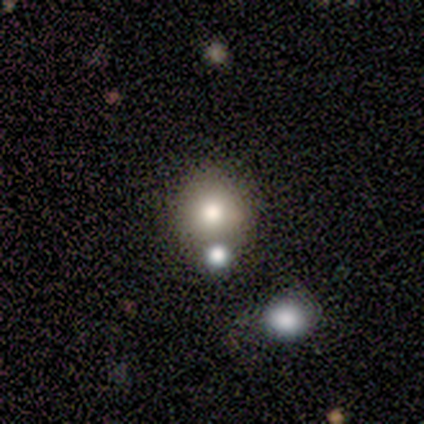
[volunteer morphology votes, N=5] Overall: smooth (60%; featured or disk 20%). How rounded: round (100%). Merging: none (75%).